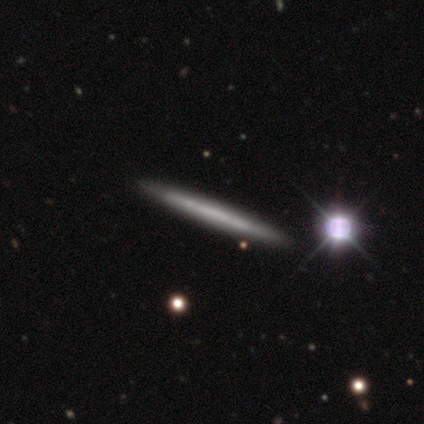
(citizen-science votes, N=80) Smooth or featured? featured or disk (66%)
Edge-on disk? yes (96%)
Edge-on bulge? none (98%)
Merging? none (45%)